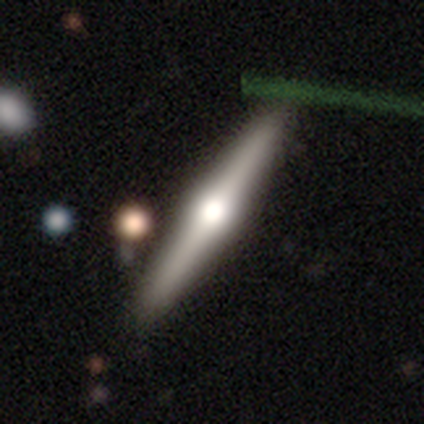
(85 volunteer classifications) Overall: featured or disk (69%). Edge-on disk: yes (98%). Edge-on bulge: rounded (97%). Merging: none (86%).